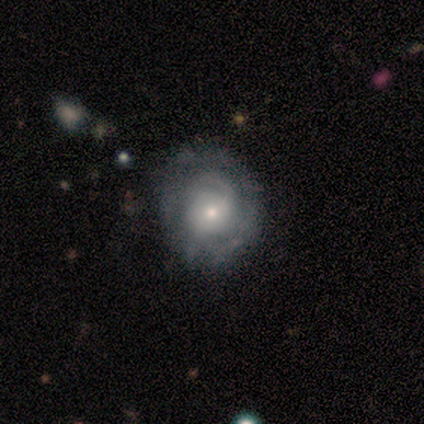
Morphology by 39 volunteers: Smooth or featured? featured or disk (72%)
Edge-on disk? no (89%)
Bar? no (68%)
Spiral arms? yes (80%)
Spiral winding? tight (65%)
Spiral arm count? 1 (35%, tied with can't tell)
Bulge size? small (64%)
Merging? none (69%)